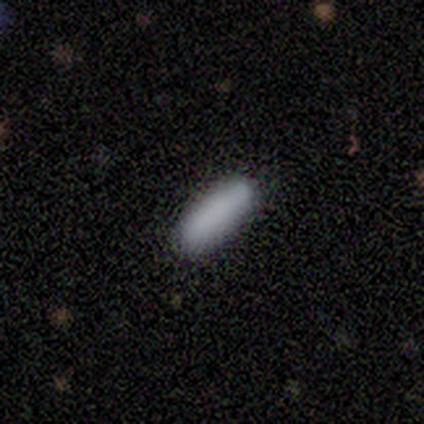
smooth_or_featured: smooth (p=0.89) [alt: featured or disk p=0.11]
how_rounded: cigar-shaped (p=0.62) [alt: in between p=0.38]
merging: none (p=0.78) [alt: minor disturbance p=0.22]